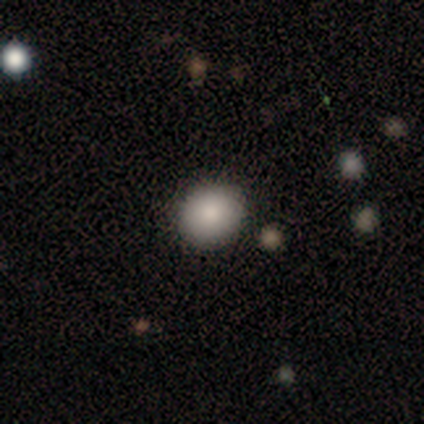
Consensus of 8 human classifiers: This is clearly a smooth galaxy (88%). How rounded: possibly in between (57%). Merging: likely none (75%).